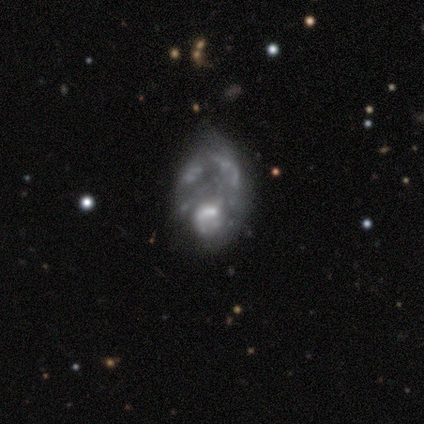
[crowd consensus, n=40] A featured or disk galaxy (72%) with no bar (83%), no spiral arms (86%) and no central bulge (41%). Merging: minor disturbance (31%, tied with major disturbance).